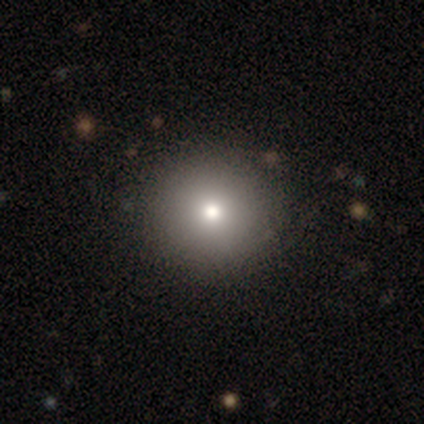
Overall: smooth (83%). How rounded: round (100%). Merging: none (100%).